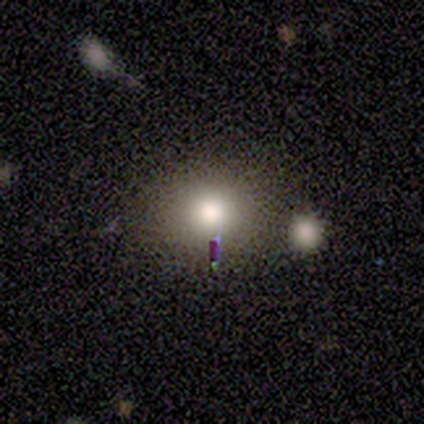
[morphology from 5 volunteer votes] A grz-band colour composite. It shows a smooth galaxy with no disk features (100%) that is in between round and cigar-shaped (60%). Merging: none (60%).